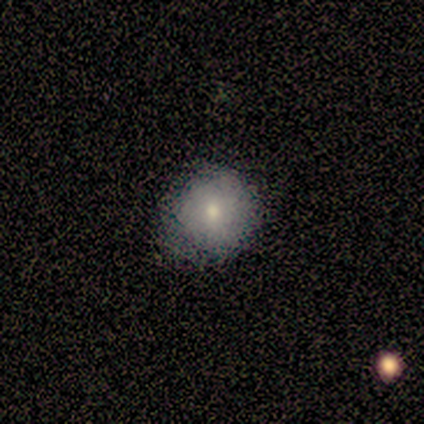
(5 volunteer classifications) Smooth or featured: smooth — 80% (star or artifact — 20%)
How rounded: round — 100%
Merging: none — 75% (minor disturbance — 25%)